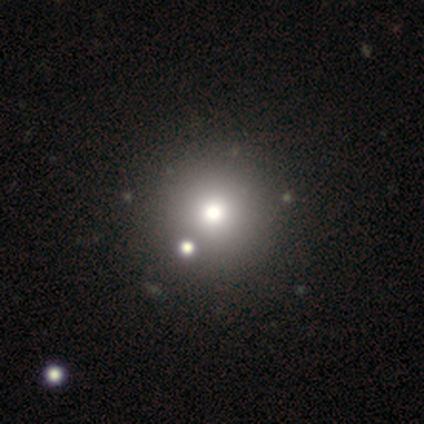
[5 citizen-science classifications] smooth_or_featured: smooth (p=0.80) [alt: featured or disk p=0.20]
how_rounded: round (p=1.00)
merging: none (p=0.80) [alt: merger p=0.20]